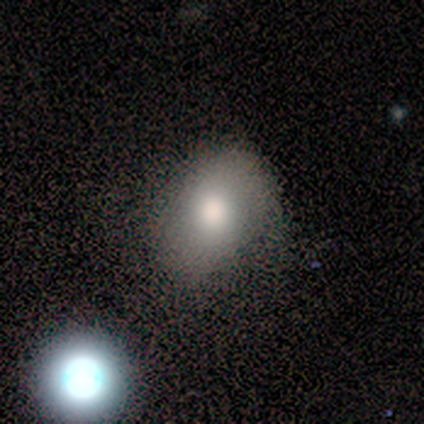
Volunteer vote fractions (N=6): Smooth or featured: smooth — 67% (featured or disk — 33%)
How rounded: in between — 75% (round — 25%)
Merging: none — 67% (minor disturbance — 33%)